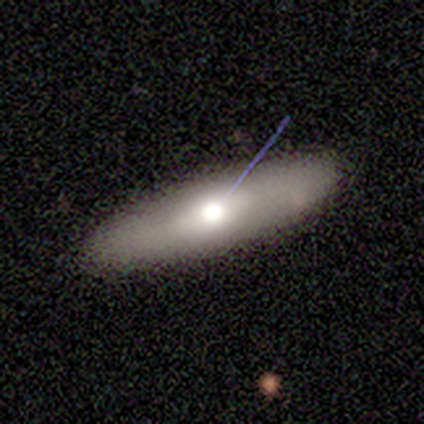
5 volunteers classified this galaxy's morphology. type=smooth (100%); roundness=in between (60%); merging=none (100%).